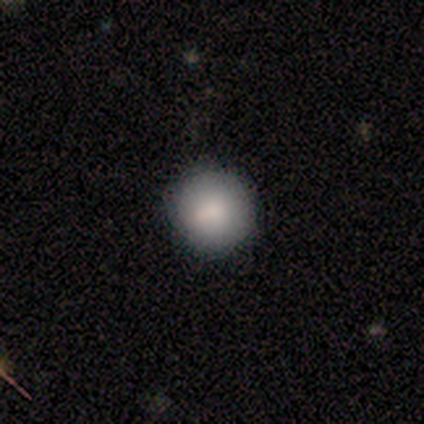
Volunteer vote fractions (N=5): smooth_or_featured: smooth (p=1.00)
how_rounded: round (p=1.00)
merging: none (p=1.00)